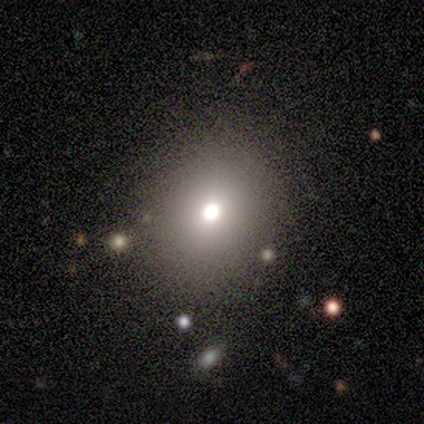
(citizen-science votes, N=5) Smooth or featured?
  - smooth: 60% *
  - featured or disk: 20%
  - star or artifact: 20%
How rounded?
  - round: 100% *
  - in between: 0%
  - cigar-shaped: 0%
Merging?
  - none: 100% *
  - minor disturbance: 0%
  - major disturbance: 0%
  - merger: 0%